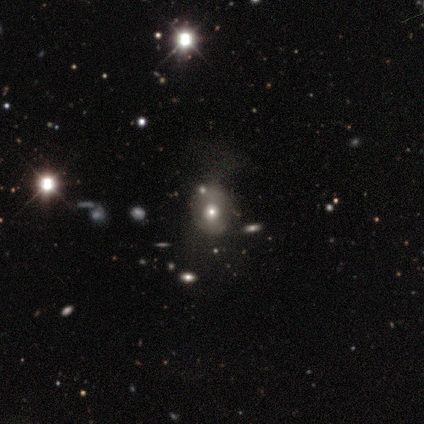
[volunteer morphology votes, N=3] Volunteers were most divided on "how rounded" (2-way tie): round: 50%, in between: 50%, cigar-shaped: 0%. More confident: merging — none (100%); smooth or featured — smooth (67%).